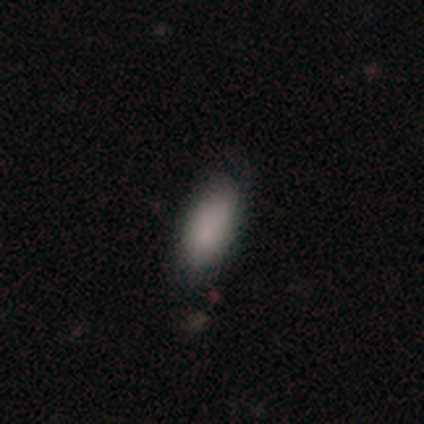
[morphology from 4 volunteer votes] This appears to be a smooth galaxy with no disk features (50%, tied with featured or disk) that is in between round and cigar-shaped (50%, tied with cigar-shaped). Merging: none (50%, tied with minor disturbance).